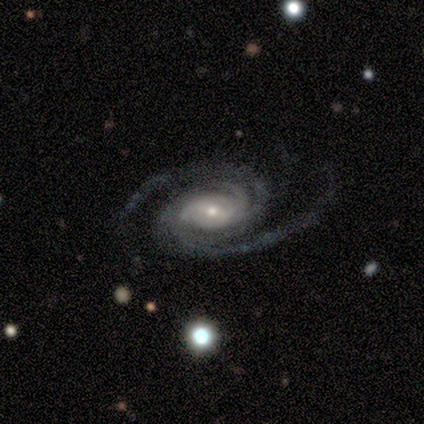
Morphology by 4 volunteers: Q: Smooth or featured?
A: featured or disk (100%)
Q: Edge-on disk?
A: no (75%); runner-up: yes (25%)
Q: Bar?
A: no (67%); runner-up: strong (33%)
Q: Spiral arms?
A: yes (100%)
Q: Spiral winding?
A: tight (67%); runner-up: medium (33%)
Q: Spiral arm count?
A: 2 (33%); tied with: 3 (33%); can't tell (33%)
Q: Bulge size?
A: small (67%); runner-up: moderate (33%)
Q: Merging?
A: none (75%); runner-up: merger (25%)